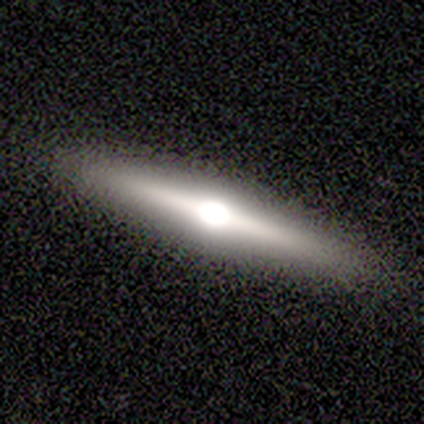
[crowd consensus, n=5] smooth_or_featured: featured or disk (p=1.00)
disk_edge_on: yes (p=1.00)
edge_on_bulge: rounded (p=1.00)
merging: none (p=1.00)